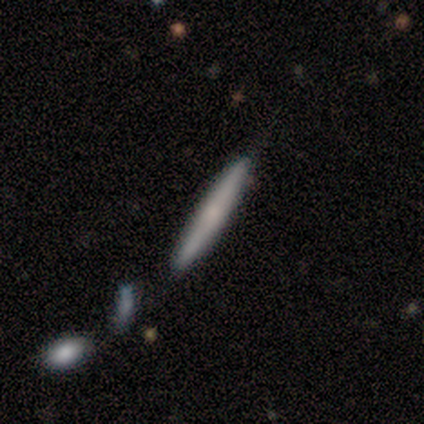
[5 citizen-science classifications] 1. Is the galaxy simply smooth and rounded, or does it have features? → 60% smooth, 40% featured or disk, 0% star or artifact.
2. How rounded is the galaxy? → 100% cigar-shaped, 0% round, 0% in between.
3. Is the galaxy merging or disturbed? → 60% none, 20% minor disturbance, 20% major disturbance, 0% merger.